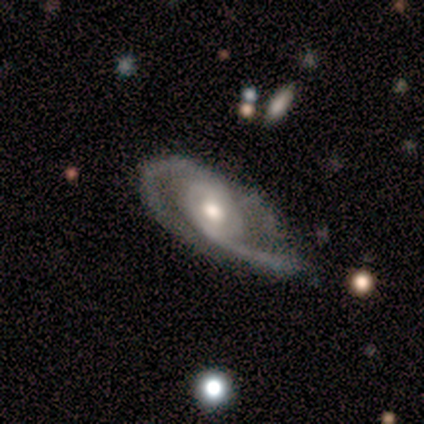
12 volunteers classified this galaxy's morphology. featured or disk 92%, smooth 8%, star or artifact 0%. Down the decision tree: edge-on disk — no (91%); bar — weak (50%, tied with no); spiral arms — yes (100%); spiral arm count — 2 (80%); spiral winding — tight (50%); bulge size — moderate (70%); merging — none (42%).